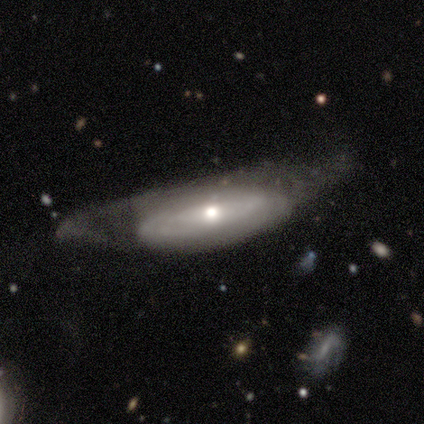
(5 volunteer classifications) This is clearly a featured or disk galaxy (80%). It is likely not viewed edge-on (75%). Bar: clearly no (100%). Spiral arm pattern: likely no (67%). Central bulge: clearly moderate (100%). Merging: likely none (60%).